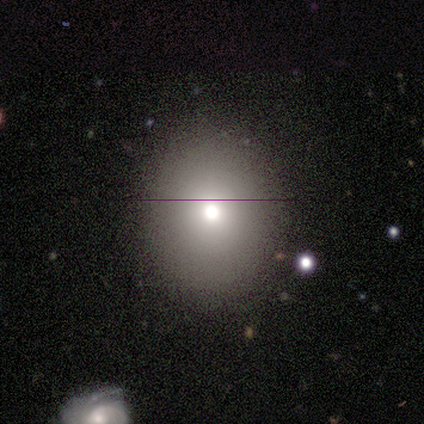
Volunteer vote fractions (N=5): Smooth or featured? smooth (80%)
How rounded? round (100%)
Merging? none (60%)